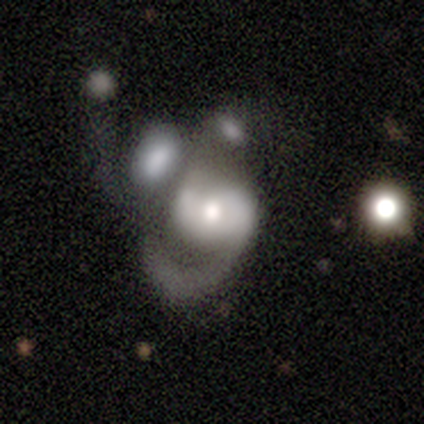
A featured or disk galaxy (77%) with no bar (66%), 2 (52%) loose (62%) spiral arms (72%) and a moderate central bulge (69%).

Vote fractions:
- Smooth or featured? featured or disk: 77% / smooth: 18% / star or artifact: 5%
- Edge-on disk? no: 97% / yes: 3%
- Bar? no: 66% / weak: 24% / strong: 10%
- Spiral arms? yes: 72% / no: 28%
- Spiral winding? loose: 62% / medium: 24% / tight: 14%
- Spiral arm count? 2: 52% / 1: 29% / can't tell: 14% / 3: 5% / 4: 0% / more than 4: 0%
- Bulge size? moderate: 69% / large: 14% / small: 10% / dominant: 3% / none: 3%
- Merging? major disturbance: 43% / merger: 35% / none: 14% / minor disturbance: 8%